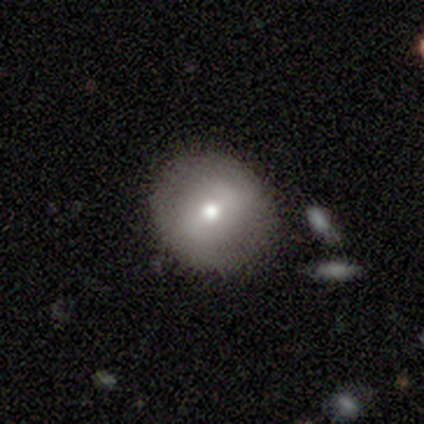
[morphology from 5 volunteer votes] Smooth or featured? smooth (60%)
How rounded? round (100%)
Merging? none (80%)